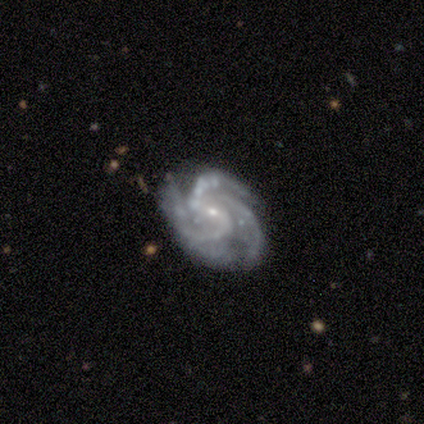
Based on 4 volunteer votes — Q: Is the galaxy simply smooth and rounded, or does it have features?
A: featured or disk — 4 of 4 (100%).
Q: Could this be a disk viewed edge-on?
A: no — 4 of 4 (100%).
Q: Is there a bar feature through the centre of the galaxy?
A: no — 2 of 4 (50%).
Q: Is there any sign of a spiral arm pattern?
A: yes — 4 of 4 (100%).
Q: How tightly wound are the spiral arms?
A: medium — 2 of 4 (50%).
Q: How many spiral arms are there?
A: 3 — 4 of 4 (100%).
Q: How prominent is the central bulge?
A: small — 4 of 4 (100%).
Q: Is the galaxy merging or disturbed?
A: none — 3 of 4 (75%).